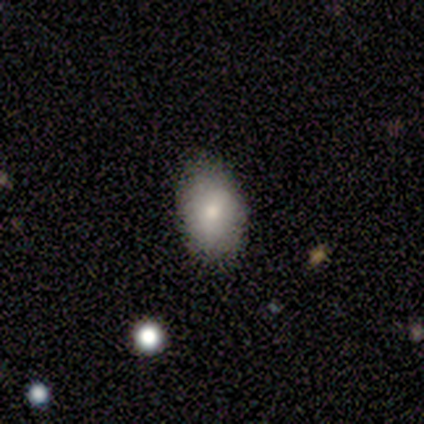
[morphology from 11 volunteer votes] A smooth galaxy with no disk features (91%) that is in between round and cigar-shaped (100%). Merging: none (82%).